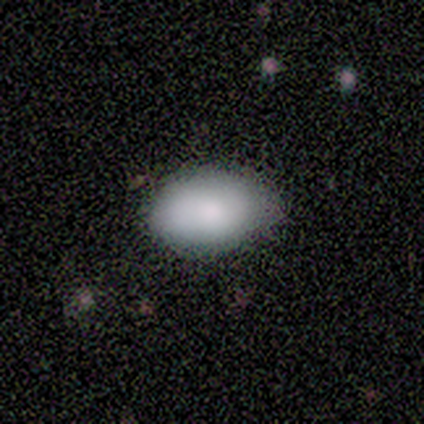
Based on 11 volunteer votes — Morphology: type=smooth (100%); roundness=in between (82%); merging=none (82%).